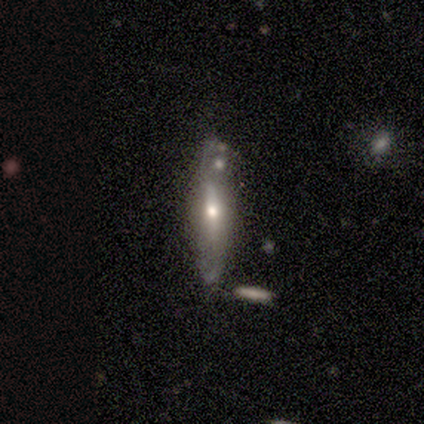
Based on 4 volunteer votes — smooth-or-featured: smooth: 50% (tied) | featured or disk: 50% (tied) | star or artifact: 0%
  how-rounded: in between: 50% (tied) | cigar-shaped: 50% (tied) | round: 0%
  merging: merger: 50% | none: 25% | minor disturbance: 25% | major disturbance: 0%